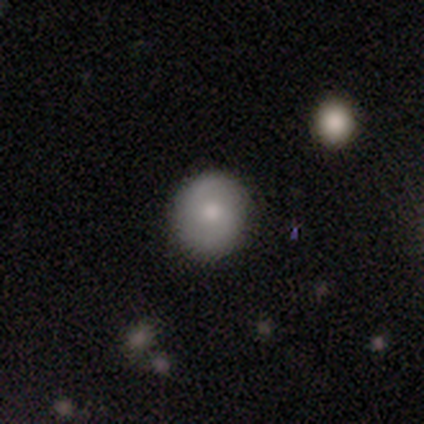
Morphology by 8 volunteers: smooth 62%, featured or disk 38%, star or artifact 0%. Down the decision tree: how rounded — round (80%); merging — none (100%).